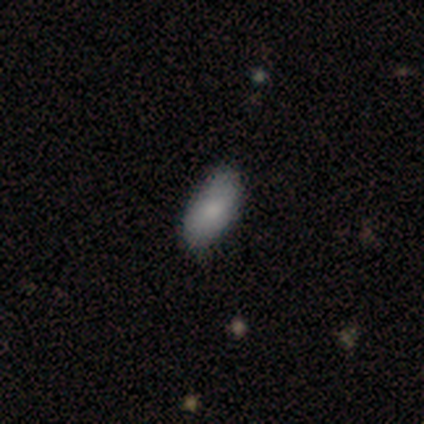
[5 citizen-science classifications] A smooth galaxy with no disk features (80%) that is in between round and cigar-shaped (100%).

Vote fractions:
- Smooth or featured? smooth: 80% / featured or disk: 20% / star or artifact: 0%
- How rounded? in between: 100% / round: 0% / cigar-shaped: 0%
- Merging? none: 100% / minor disturbance: 0% / major disturbance: 0% / merger: 0%